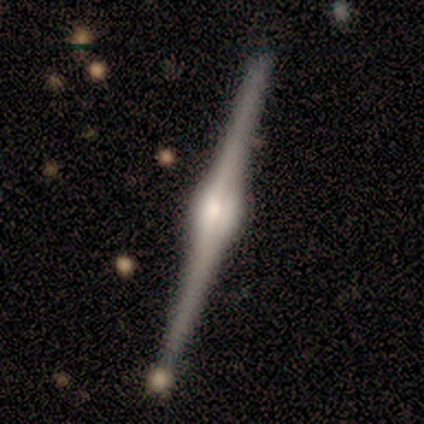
Morphology: type=featured or disk (92%); edge-on=yes (100%); edge-on bulge=rounded (86%); merging=none (84%).